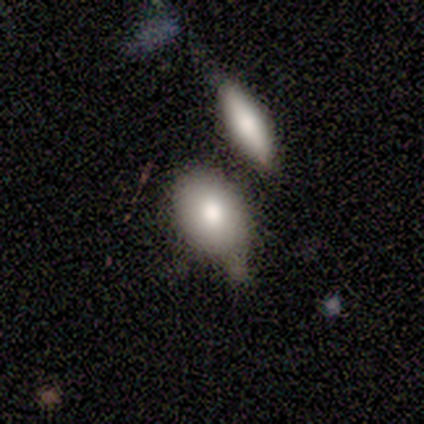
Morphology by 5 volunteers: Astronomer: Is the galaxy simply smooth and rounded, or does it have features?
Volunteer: smooth — 100%.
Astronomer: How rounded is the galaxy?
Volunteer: in between — 100%.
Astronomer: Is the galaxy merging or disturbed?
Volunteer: none — 60%.